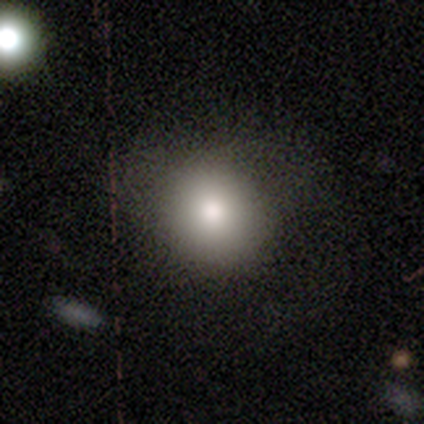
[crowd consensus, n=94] smooth 80%, featured or disk 11%, star or artifact 10%. Down the decision tree: how rounded — round (92%); merging — none (81%).